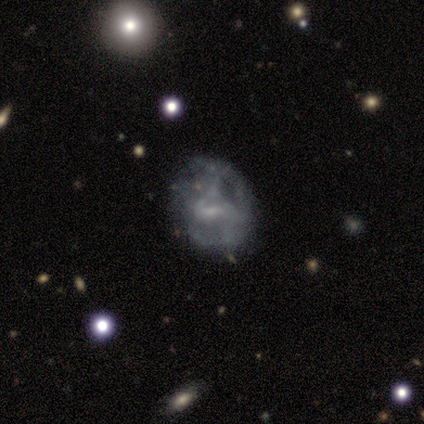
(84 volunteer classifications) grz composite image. It shows a featured or disk galaxy (76%) with a weak bar (66%), 2 (59%) medium (51%) spiral arms (61%) and a small central bulge (47%). Merging: none (41%).